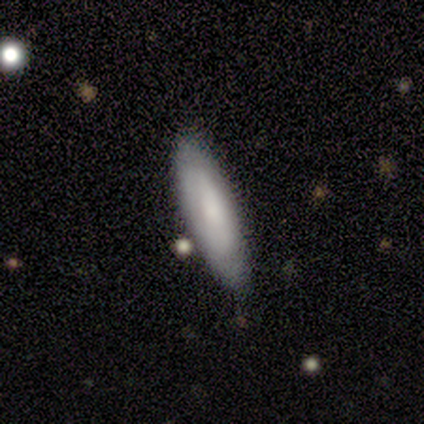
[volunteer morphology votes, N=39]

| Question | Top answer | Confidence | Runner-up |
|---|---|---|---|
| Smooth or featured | smooth | 69% | featured or disk (26%) |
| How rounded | cigar-shaped | 74% | in between (26%) |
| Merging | none | 86% | minor disturbance (11%) |